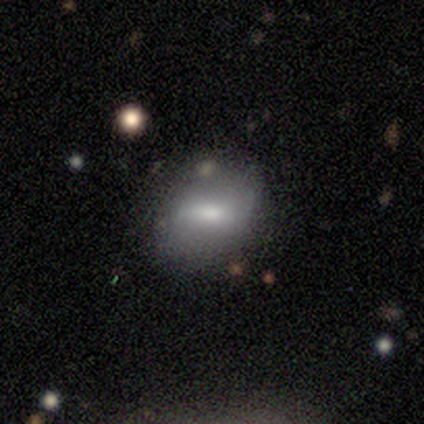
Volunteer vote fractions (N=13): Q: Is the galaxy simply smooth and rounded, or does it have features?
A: featured or disk — 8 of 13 (62%).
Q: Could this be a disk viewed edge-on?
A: no — 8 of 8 (100%).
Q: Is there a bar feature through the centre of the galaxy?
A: weak — 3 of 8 (38%, tied with no).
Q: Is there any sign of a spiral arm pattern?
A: no — 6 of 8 (75%).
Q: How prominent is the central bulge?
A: moderate — 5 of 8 (62%).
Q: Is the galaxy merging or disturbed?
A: none — 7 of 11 (64%).